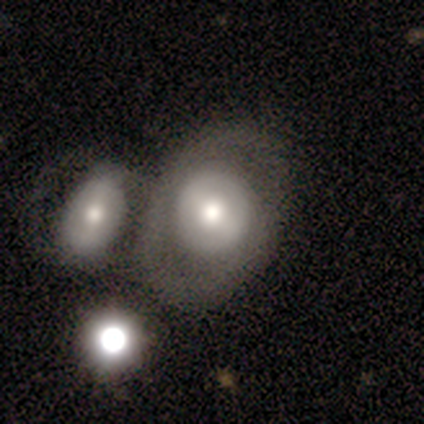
A smooth galaxy with no disk features (40%, tied with featured or disk) that is round (50%, tied with in between).

Vote fractions:
- Smooth or featured? smooth: 40% (tied) / featured or disk: 40% (tied) / star or artifact: 20%
- How rounded? round: 50% (tied) / in between: 50% (tied) / cigar-shaped: 0%
- Merging? none: 100% / minor disturbance: 0% / major disturbance: 0% / merger: 0%